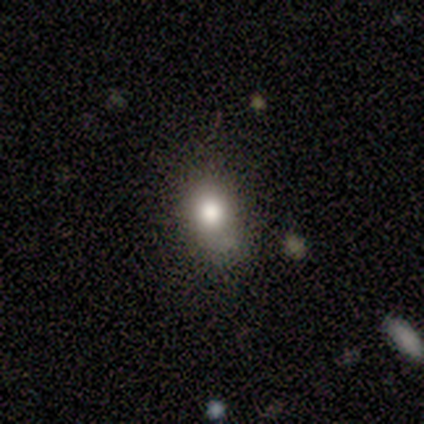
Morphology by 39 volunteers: smooth 67%, star or artifact 21%, featured or disk 13%. Down the decision tree: how rounded — in between (62%); merging — none (52%).